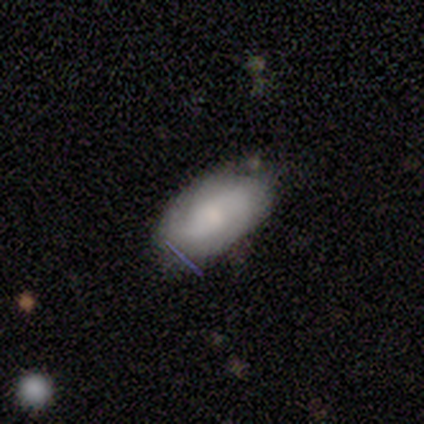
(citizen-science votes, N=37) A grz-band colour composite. It shows a featured or disk galaxy (49%) with no bar (56%), 2 (46%) tight (54%) spiral arms (81%) and a small central bulge (38%). Merging: none (68%).